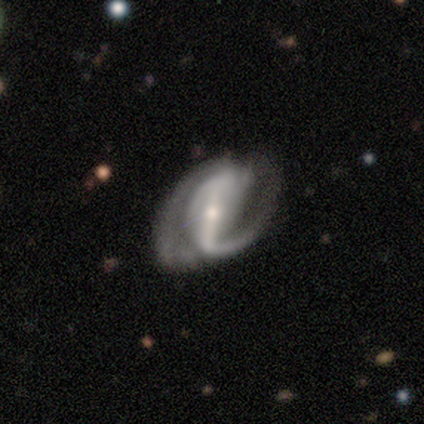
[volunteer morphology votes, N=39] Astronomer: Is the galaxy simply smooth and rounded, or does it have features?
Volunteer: featured or disk — 85%.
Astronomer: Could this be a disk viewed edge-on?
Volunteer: no — 97%.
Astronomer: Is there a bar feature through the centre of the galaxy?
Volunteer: strong — 84%.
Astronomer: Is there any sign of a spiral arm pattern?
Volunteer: yes — 97%.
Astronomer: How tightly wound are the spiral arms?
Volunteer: medium — 45% (runner-up: loose, 32%).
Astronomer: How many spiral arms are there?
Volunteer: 2 — 68%.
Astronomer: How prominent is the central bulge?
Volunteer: small — 56% (runner-up: moderate, 41%).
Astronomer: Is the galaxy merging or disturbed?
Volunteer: none — 44% (runner-up: minor disturbance, 31%).